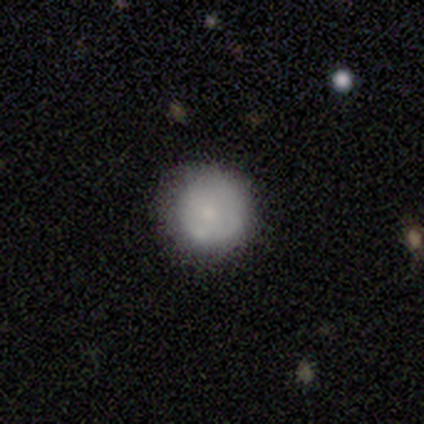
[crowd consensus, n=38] Morphology: type=smooth (53%); roundness=round (100%); merging=none (83%).